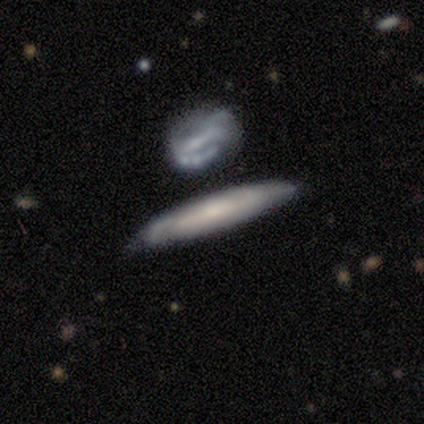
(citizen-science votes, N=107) This is possibly a featured or disk galaxy (55%). It is possibly viewed edge-on (56%). Edge-on bulge: possibly none (58%). Merging: likely none (60%).